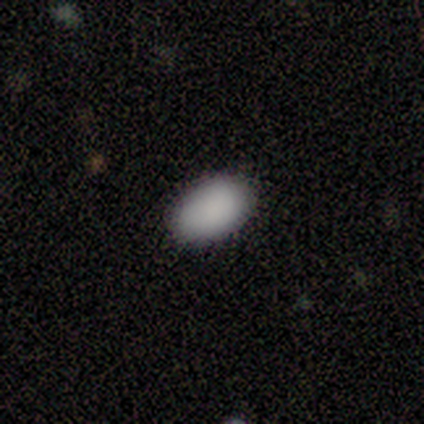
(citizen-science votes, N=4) smooth-or-featured: smooth: 75% | star or artifact: 25% | featured or disk: 0%
  how-rounded: in between: 100% | round: 0% | cigar-shaped: 0%
  merging: none: 67% | minor disturbance: 33% | major disturbance: 0% | merger: 0%